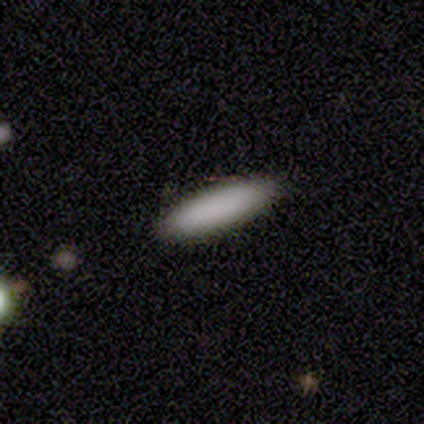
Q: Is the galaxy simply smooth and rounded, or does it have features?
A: smooth — 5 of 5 (100%).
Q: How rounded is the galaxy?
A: cigar-shaped — 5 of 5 (100%).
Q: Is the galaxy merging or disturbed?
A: none — 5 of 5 (100%).